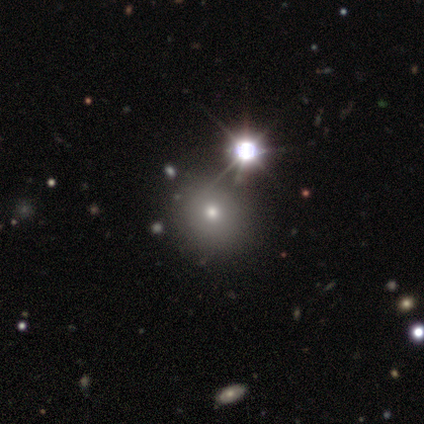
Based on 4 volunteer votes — Volunteers were most divided on "smooth or featured": smooth: 75%, star or artifact: 25%, featured or disk: 0%. More confident: how rounded — round (100%); merging — none (100%).